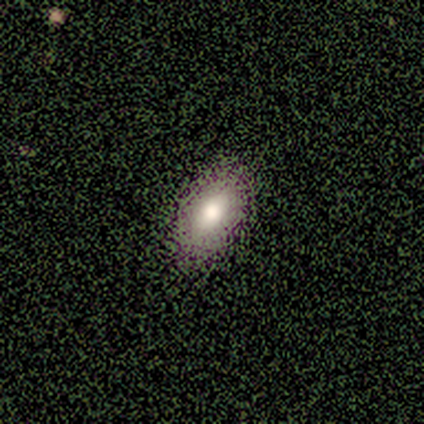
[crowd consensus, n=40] smooth_or_featured: smooth (p=0.82) [alt: featured or disk p=0.12]
how_rounded: in between (p=0.91) [alt: cigar-shaped p=0.06]
merging: none (p=0.79) [alt: minor disturbance p=0.03]